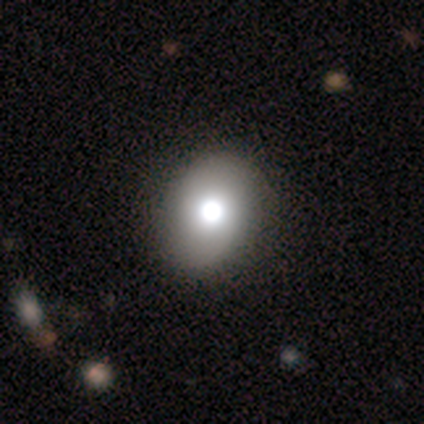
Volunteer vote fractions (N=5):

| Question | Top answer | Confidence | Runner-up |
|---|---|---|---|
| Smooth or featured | smooth | 80% | star or artifact (20%) |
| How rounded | in between | 75% | round (25%) |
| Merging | none | 100% | — |